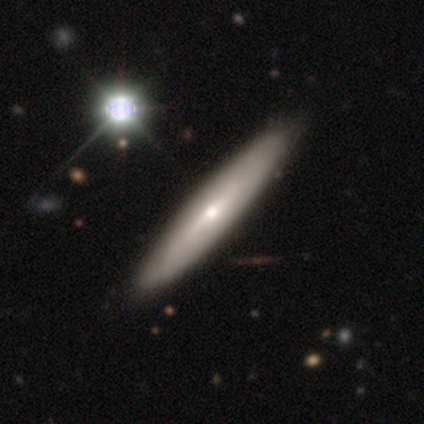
Smooth or featured: smooth — 50% (featured or disk — 42%)
How rounded: cigar-shaped — 95% (in between — 5%)
Merging: none — 57% (minor disturbance — 3%)